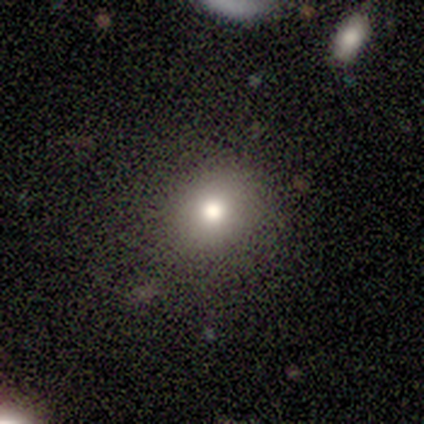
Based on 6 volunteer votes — Morphology: type=smooth (100%); roundness=round (83%); merging=none (83%).